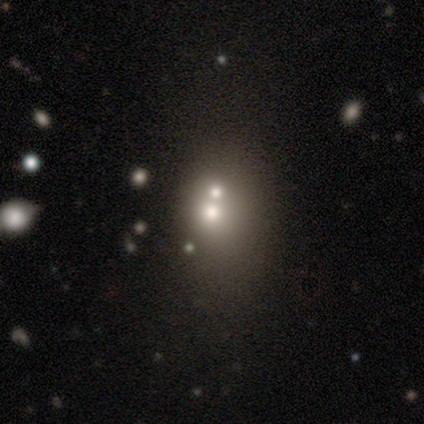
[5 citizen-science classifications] Morphology: type=smooth (100%); roundness=round (80%); merging=merger (60%).